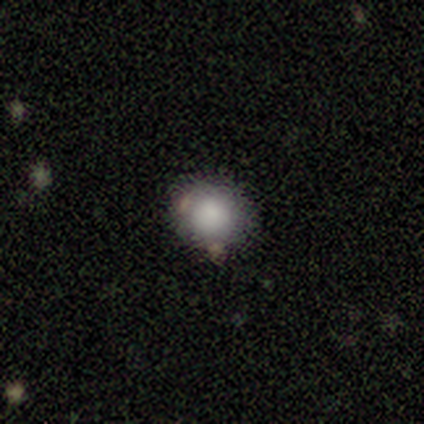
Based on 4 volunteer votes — Smooth or featured? 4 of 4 (100%) said smooth. How rounded? 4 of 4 (100%) said round. Merging? 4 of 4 (100%) said none.